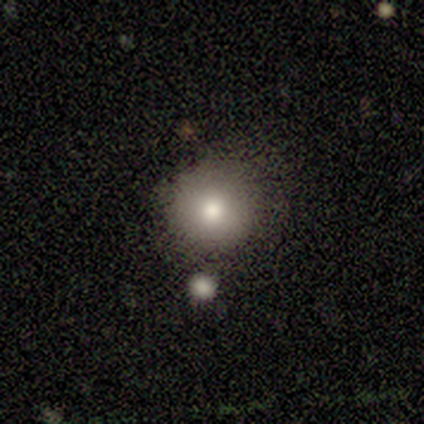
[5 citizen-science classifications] A smooth galaxy with no disk features (80%) that is round (100%). Merging: none (75%).